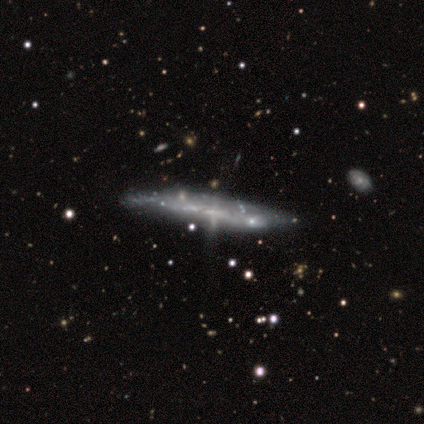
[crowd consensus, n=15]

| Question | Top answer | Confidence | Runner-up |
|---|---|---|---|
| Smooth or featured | featured or disk | 87% | smooth (7%) |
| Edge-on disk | yes | 69% | no (31%) |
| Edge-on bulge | none | 89% | boxy (11%) |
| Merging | minor disturbance | 43% | none (36%) |